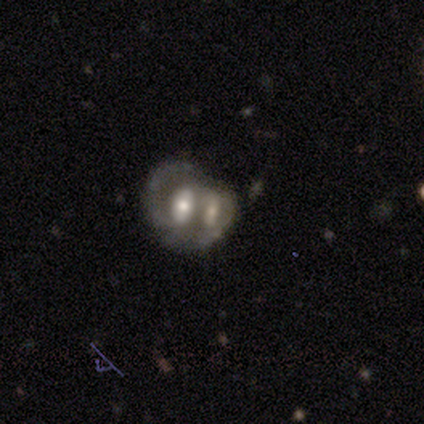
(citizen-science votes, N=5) featured or disk 100%, smooth 0%, star or artifact 0%. Down the decision tree: edge-on disk — no (100%); bar — no (60%); spiral arms — no (80%); bulge size — moderate (60%); merging — merger (100%).